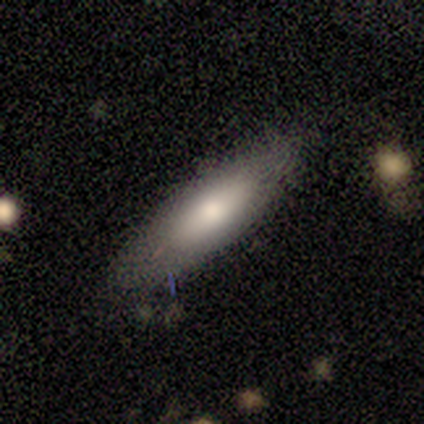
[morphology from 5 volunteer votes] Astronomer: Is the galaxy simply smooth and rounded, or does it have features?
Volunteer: smooth — 60% (runner-up: featured or disk, 40%).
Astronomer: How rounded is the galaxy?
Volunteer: in between — 67%.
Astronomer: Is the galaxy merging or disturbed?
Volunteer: none — 80%.